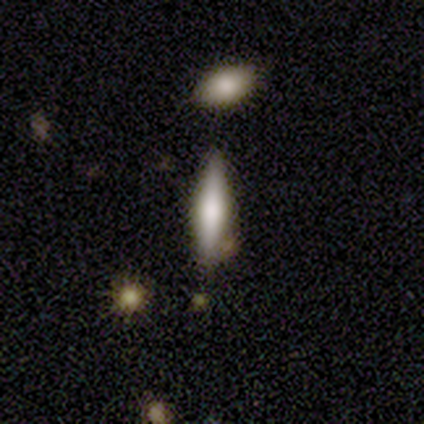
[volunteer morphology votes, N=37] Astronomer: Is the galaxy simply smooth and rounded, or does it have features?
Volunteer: smooth — 54% (runner-up: featured or disk, 41%).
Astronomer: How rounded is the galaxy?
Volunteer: cigar-shaped — 85%.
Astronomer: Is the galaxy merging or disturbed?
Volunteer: none — 89%.